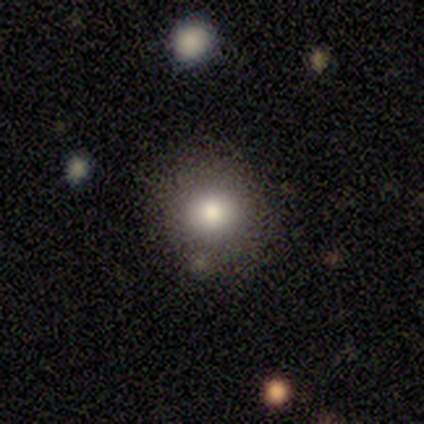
smooth_or_featured: smooth (p=1.00)
how_rounded: round (p=1.00)
merging: none (p=0.80) [alt: merger p=0.20]